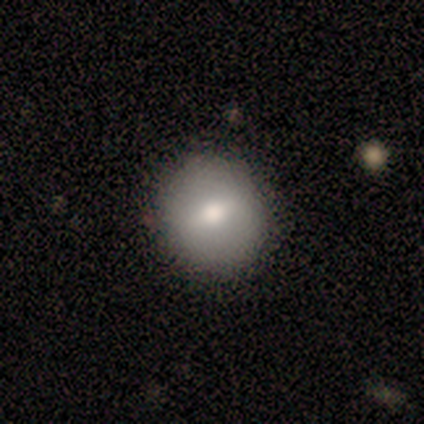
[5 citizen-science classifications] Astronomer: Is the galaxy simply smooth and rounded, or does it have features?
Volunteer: smooth — 40%, tied with star or artifact at 40%.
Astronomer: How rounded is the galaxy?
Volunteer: round — 100%.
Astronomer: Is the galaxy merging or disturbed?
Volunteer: none — 100%.